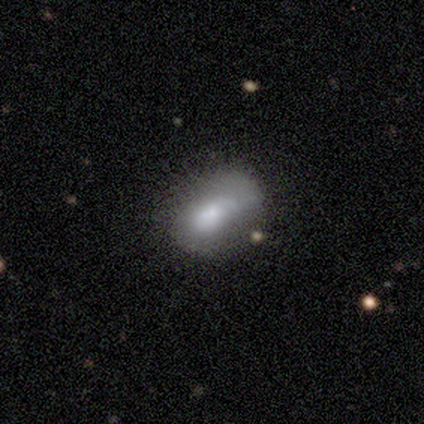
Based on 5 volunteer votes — Smooth or featured? 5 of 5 (100%) said smooth. How rounded? 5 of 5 (100%) said in between. Merging? 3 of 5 (60%) said minor disturbance.